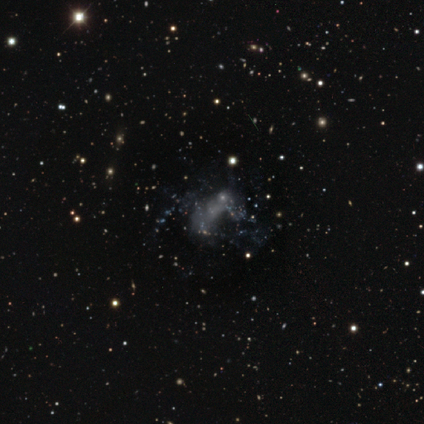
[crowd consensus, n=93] Smooth or featured?
  - featured or disk: 45% *
  - star or artifact: 35%
  - smooth: 19%
Edge-on disk?
  - no: 90% *
  - yes: 10%
Bar?
  - no: 95% *
  - weak: 5%
  - strong: 0%
Spiral arms?
  - no: 89% *
  - yes: 11%
Bulge size?
  - none: 76% *
  - small: 11%
  - large: 5%
  - moderate: 5%
  - dominant: 3%
Merging?
  - none: 33% *
  - major disturbance: 30%
  - merger: 23%
  - minor disturbance: 13%